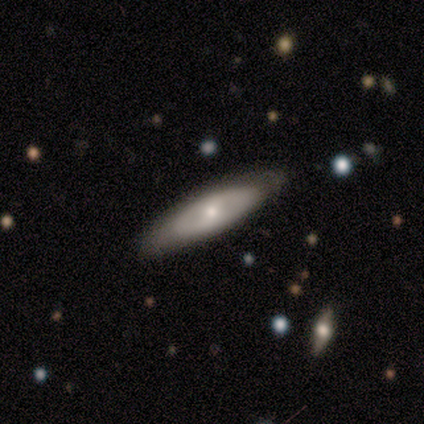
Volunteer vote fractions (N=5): Overall: smooth (80%). How rounded: in between (75%). Merging: none (100%).